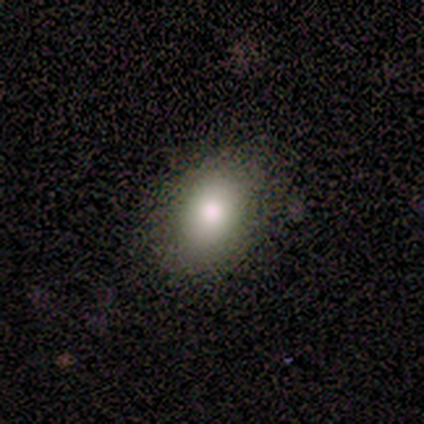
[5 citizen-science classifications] This appears to be a smooth galaxy with no disk features (100%) that is in between round and cigar-shaped (80%). Merging: none (80%).